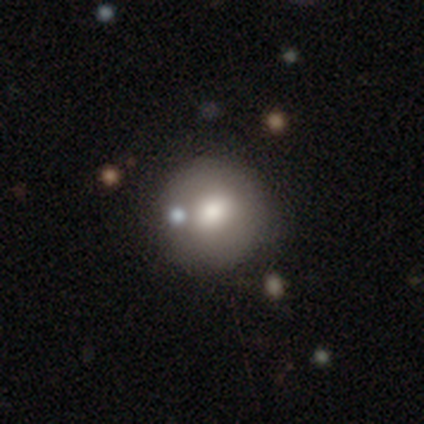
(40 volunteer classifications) Smooth or featured? 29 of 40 (72%) said smooth. How rounded? 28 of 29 (97%) said round. Merging? 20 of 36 (56%) said none.